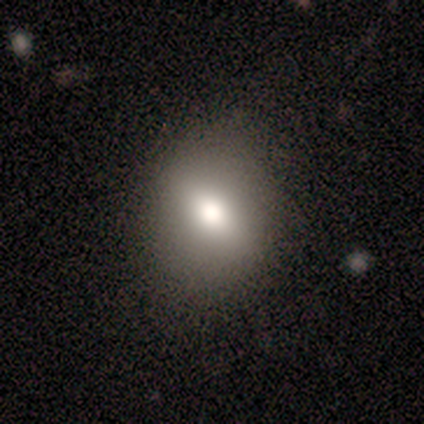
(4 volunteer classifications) This is possibly a smooth galaxy (50%). How rounded: clearly round (100%). Merging: likely none (67%).